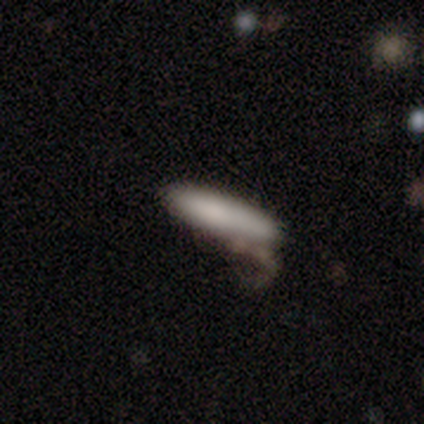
A smooth galaxy with no disk features (80%) that is cigar-shaped (62%).

Vote fractions:
- Smooth or featured? smooth: 80% / featured or disk: 20% / star or artifact: 0%
- How rounded? cigar-shaped: 62% / in between: 38% / round: 0%
- Merging? major disturbance: 40% / none: 30% / minor disturbance: 20% / merger: 10%